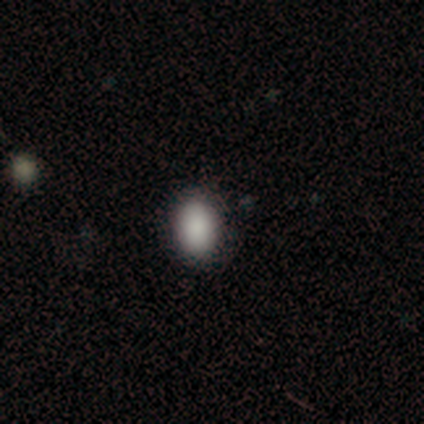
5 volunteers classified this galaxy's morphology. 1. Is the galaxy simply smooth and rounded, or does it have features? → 100% smooth, 0% featured or disk, 0% star or artifact.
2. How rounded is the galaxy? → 80% in between, 20% round, 0% cigar-shaped.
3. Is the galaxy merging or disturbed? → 80% none, 20% minor disturbance, 0% major disturbance, 0% merger.